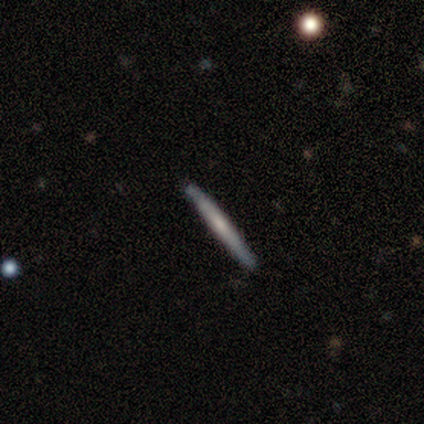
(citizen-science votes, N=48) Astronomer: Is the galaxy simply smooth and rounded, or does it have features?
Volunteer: featured or disk — 52% (runner-up: smooth, 44%).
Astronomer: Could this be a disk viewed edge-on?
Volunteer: yes — 96%.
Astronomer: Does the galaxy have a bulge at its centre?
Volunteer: none — 75%.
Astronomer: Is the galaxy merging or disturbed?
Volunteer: none — 96%.